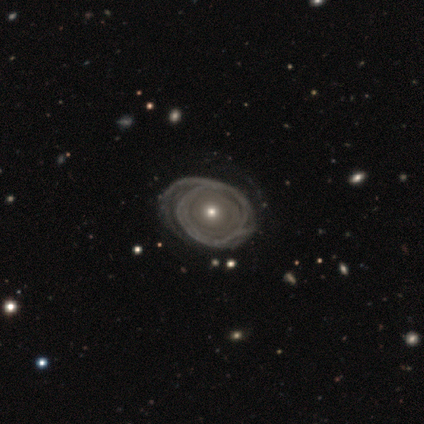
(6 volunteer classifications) Smooth or featured? 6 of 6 (100%) said featured or disk. Edge-on disk? 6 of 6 (100%) said no. Bar? 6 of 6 (100%) said no. Spiral arms? 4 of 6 (67%) said yes. Spiral winding? 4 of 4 (100%) said tight. Spiral arm count? 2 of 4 (50%) said can't tell. Bulge size? 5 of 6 (83%) said moderate. Merging? 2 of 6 (33%, tied with minor disturbance and major disturbance) said none.